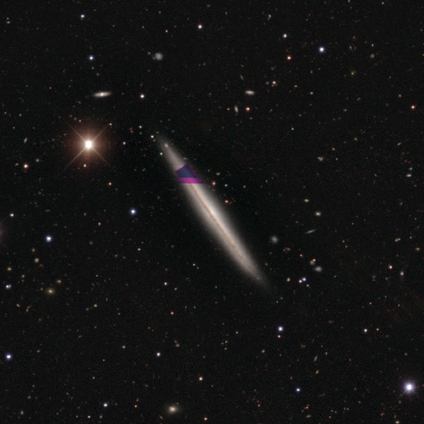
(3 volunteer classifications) Q: Smooth or featured?
A: featured or disk (67%); runner-up: smooth (33%)
Q: Edge-on disk?
A: yes (100%)
Q: Edge-on bulge?
A: none (100%)
Q: Merging?
A: none (100%)